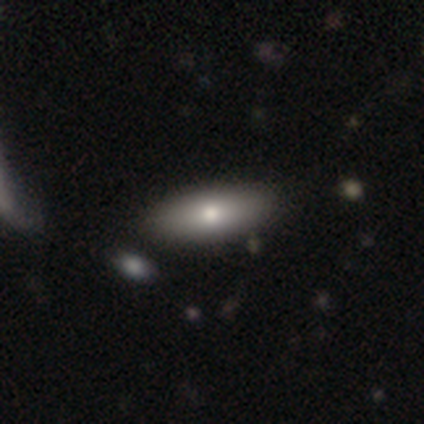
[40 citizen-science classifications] smooth 72%, featured or disk 22%, star or artifact 5%. Down the decision tree: how rounded — in between (62%); merging — none (74%).